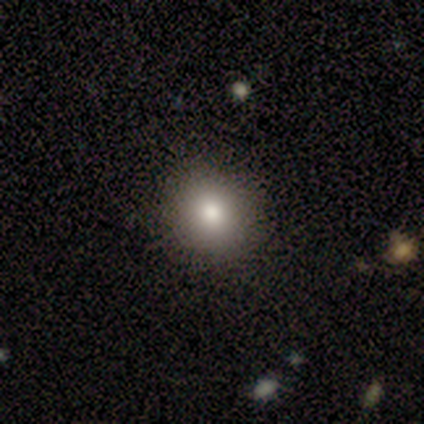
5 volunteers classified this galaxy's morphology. This is clearly a smooth galaxy (100%). How rounded: clearly round (80%). Merging: clearly none (80%).